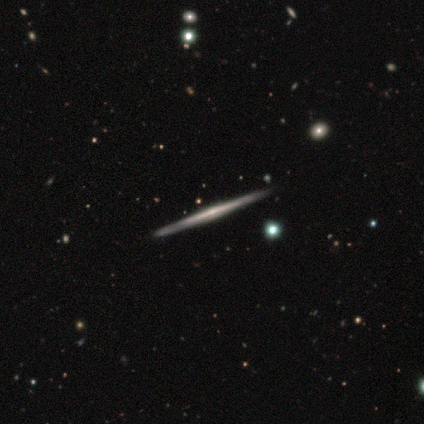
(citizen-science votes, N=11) featured or disk 100%, smooth 0%, star or artifact 0%. Down the decision tree: edge-on disk — yes (100%); edge-on bulge — rounded (55%); merging — none (91%).